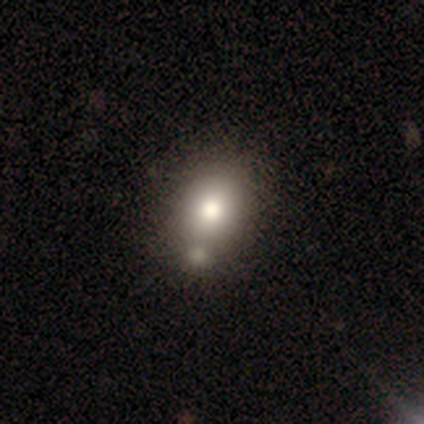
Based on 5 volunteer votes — Overall: smooth (80%). How rounded: in between (75%). Merging: minor disturbance (40%; none 20%).